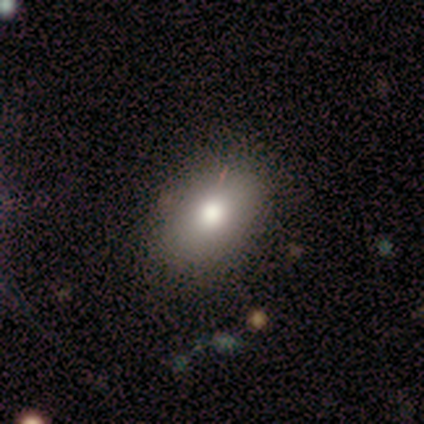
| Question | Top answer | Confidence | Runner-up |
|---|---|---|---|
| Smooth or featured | smooth | 80% | featured or disk (20%) |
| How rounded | round | 50% | tied: in between (50%) |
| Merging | none | 80% | minor disturbance (20%) |